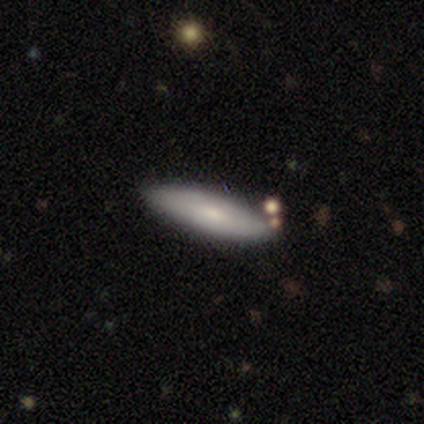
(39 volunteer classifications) Smooth or featured?
  - smooth: 56% *
  - featured or disk: 38%
  - star or artifact: 5%
How rounded?
  - cigar-shaped: 59% *
  - in between: 41%
  - round: 0%
Merging?
  - none: 81% *
  - minor disturbance: 11%
  - merger: 5%
  - major disturbance: 3%